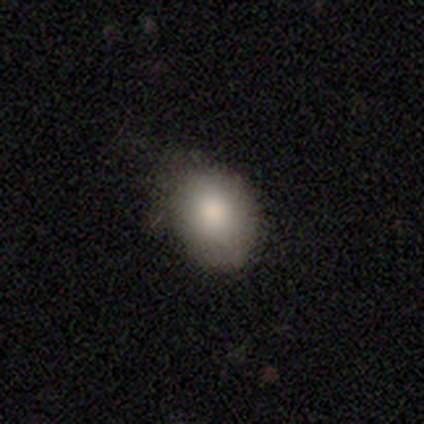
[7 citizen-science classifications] A smooth galaxy with no disk features (71%) that is in between round and cigar-shaped (100%). Merging: none (43%, tied with minor disturbance).